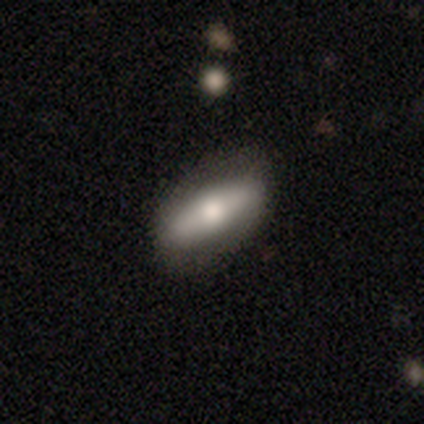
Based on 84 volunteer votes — A smooth galaxy with no disk features (52%) that is in between round and cigar-shaped (66%).

Vote fractions:
- Smooth or featured? smooth: 52% / featured or disk: 42% / star or artifact: 6%
- How rounded? in between: 66% / cigar-shaped: 34% / round: 0%
- Merging? none: 73% / minor disturbance: 15% / major disturbance: 11% / merger: 0%